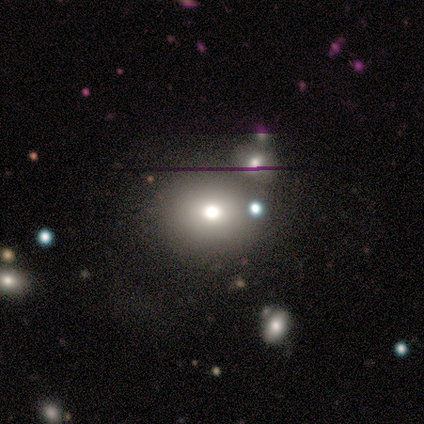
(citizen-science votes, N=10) A smooth galaxy with no disk features (50%) that is round (60%). Merging: none (83%).